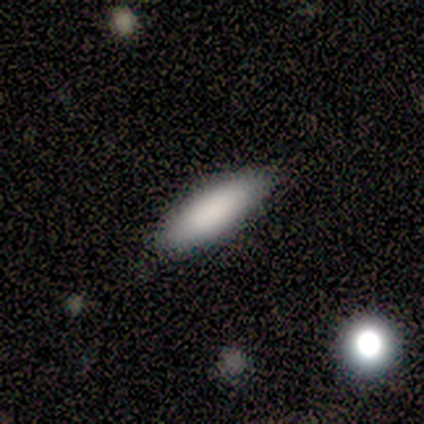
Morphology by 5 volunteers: Smooth or featured?
  - smooth: 100% *
  - featured or disk: 0%
  - star or artifact: 0%
How rounded?
  - cigar-shaped: 60% *
  - in between: 40%
  - round: 0%
Merging?
  - none: 100% *
  - minor disturbance: 0%
  - major disturbance: 0%
  - merger: 0%